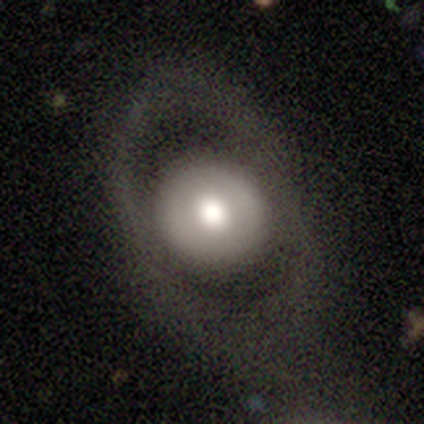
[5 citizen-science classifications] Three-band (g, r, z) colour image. It shows a smooth galaxy with no disk features (80%) that is round (75%). Merging: none (80%).